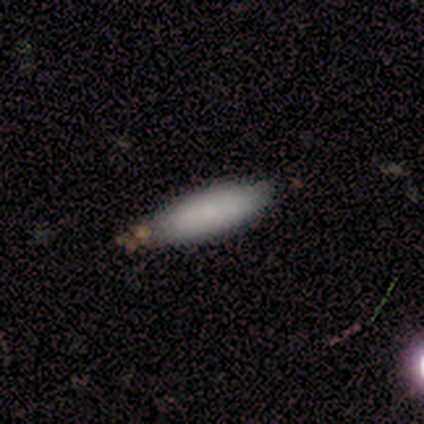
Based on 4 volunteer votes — Morphology: type=smooth (100%); roundness=in between (100%); merging=none (100%).